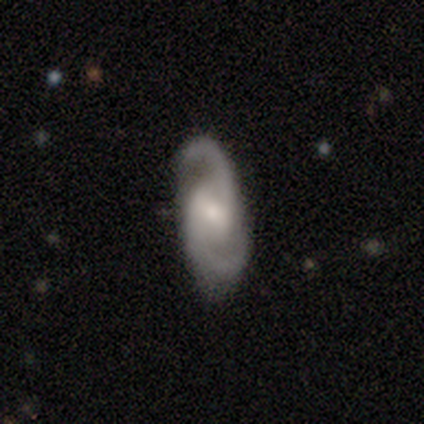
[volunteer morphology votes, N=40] smooth-or-featured: featured or disk: 85% | smooth: 12% | star or artifact: 2%
  disk-edge-on: no: 100% | yes: 0%
    bar: weak: 59% | no: 29% | strong: 12%
    has-spiral-arms: yes: 100% | no: 0%
      spiral-winding: medium: 68% | loose: 21% | tight: 12%
      spiral-arm-count: 2: 97% | can't tell: 3% | 1: 0% | 3: 0% | 4: 0% | more than 4: 0%
    bulge-size: moderate: 59% | small: 29% | large: 6% | dominant: 3% | none: 3%
  merging: none: 82% | minor disturbance: 10% | merger: 5% | major disturbance: 3%